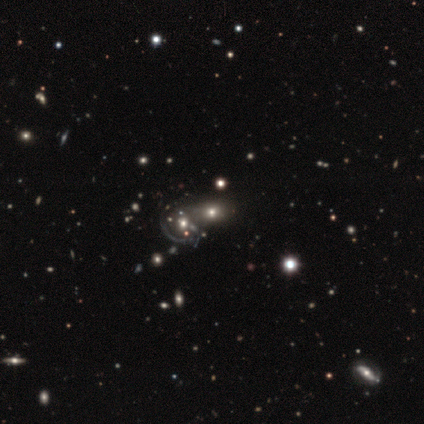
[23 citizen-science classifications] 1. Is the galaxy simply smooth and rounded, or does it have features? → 61% smooth, 26% star or artifact, 13% featured or disk.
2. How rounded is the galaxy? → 79% in between, 21% round, 0% cigar-shaped.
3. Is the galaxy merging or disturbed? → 65% none, 24% merger, 12% minor disturbance, 0% major disturbance.